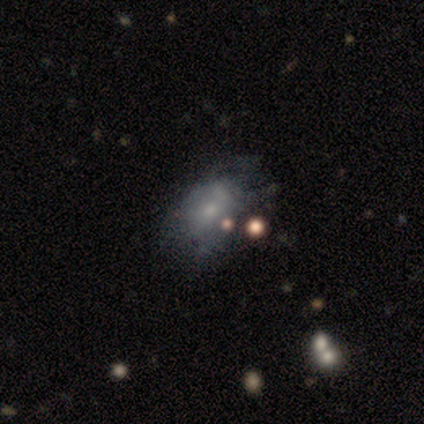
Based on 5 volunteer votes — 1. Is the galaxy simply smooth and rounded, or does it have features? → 40% smooth (tied), 40% featured or disk (tied), 20% star or artifact.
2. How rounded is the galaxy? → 100% in between, 0% round, 0% cigar-shaped.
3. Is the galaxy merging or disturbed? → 25% none (tied), 25% minor disturbance (tied), 25% major disturbance (tied), 25% merger (tied).